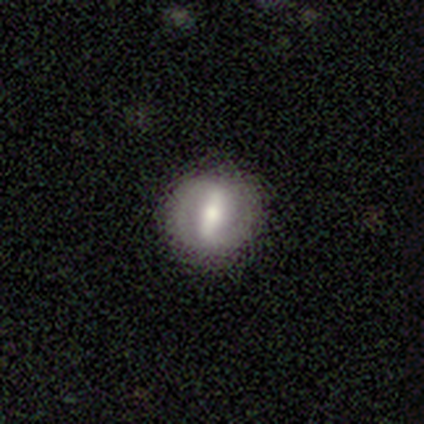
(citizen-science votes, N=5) Morphology: type=featured or disk (100%); edge-on=no (100%); bar=strong (80%); spiral arms=yes (60%); winding=tight (67%); arm count=2 (100%); bulge=moderate (60%); merging=none (100%).